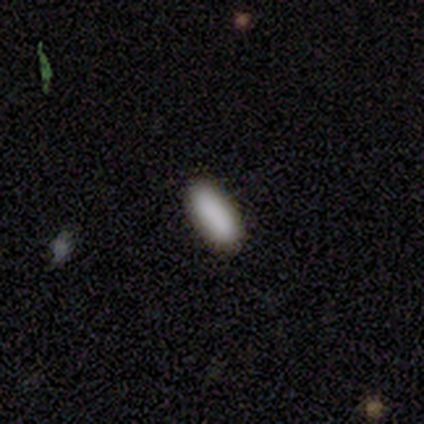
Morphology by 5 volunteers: This is clearly a smooth galaxy (80%). How rounded: likely in between (75%). Merging: clearly none (100%).